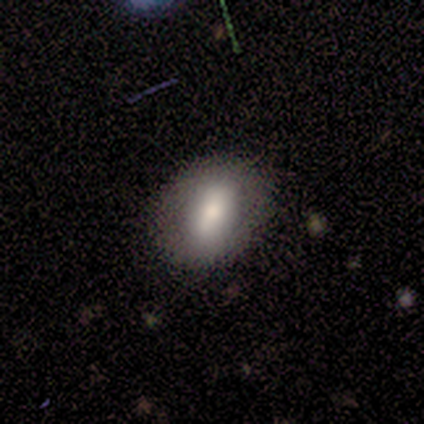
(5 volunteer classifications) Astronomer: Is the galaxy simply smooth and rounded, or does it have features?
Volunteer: smooth — 40%, tied with featured or disk at 40%.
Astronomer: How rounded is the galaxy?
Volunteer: round — 50%, tied with in between at 50%.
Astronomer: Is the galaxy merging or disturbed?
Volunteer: none — 100%.